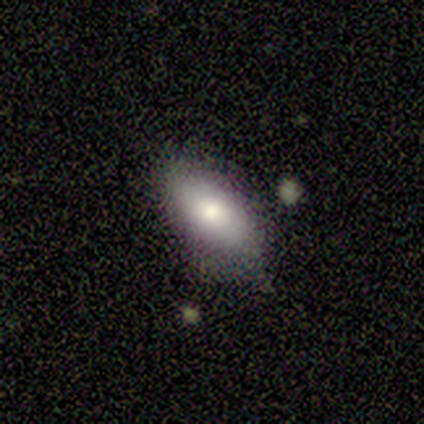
Smooth or featured: smooth — 100%
How rounded: in between — 100%
Merging: none — 80% (minor disturbance — 20%)